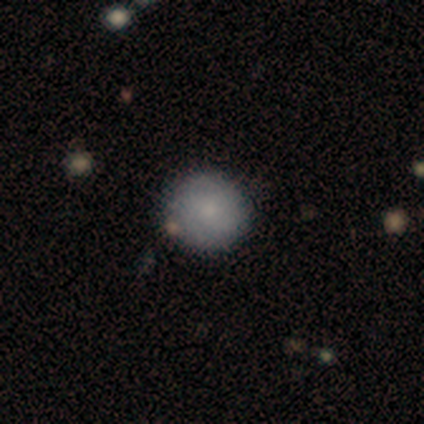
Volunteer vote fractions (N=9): This appears to be a smooth galaxy with no disk features (67%) that is round (100%). Merging: none (89%).